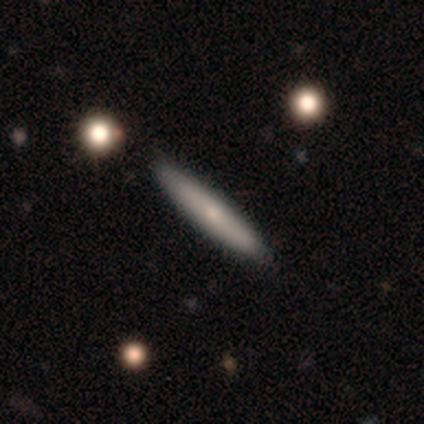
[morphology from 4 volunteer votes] Smooth or featured?
  - featured or disk: 75% *
  - smooth: 25%
  - star or artifact: 0%
Edge-on disk?
  - yes: 100% *
  - no: 0%
Edge-on bulge?
  - rounded: 67% *
  - none: 33%
  - boxy: 0%
Merging?
  - none: 100% *
  - minor disturbance: 0%
  - major disturbance: 0%
  - merger: 0%